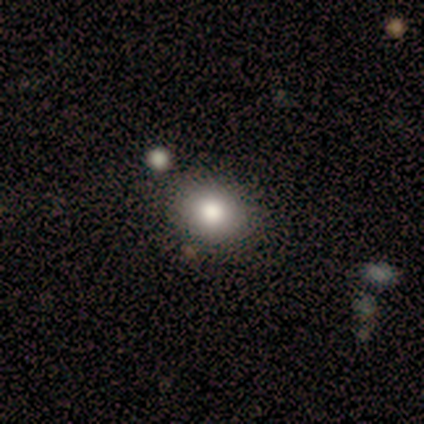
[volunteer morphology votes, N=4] Smooth or featured: smooth — 100%
How rounded: round — 75% (in between — 25%)
Merging: none — 75% (minor disturbance — 25%)